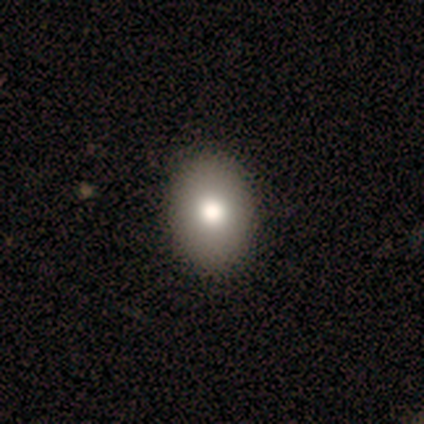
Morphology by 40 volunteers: Smooth or featured?
  - smooth: 80% *
  - featured or disk: 20%
  - star or artifact: 0%
How rounded?
  - in between: 78% *
  - round: 22%
  - cigar-shaped: 0%
Merging?
  - none: 60% *
  - minor disturbance: 2%
  - major disturbance: 2%
  - merger: 0%